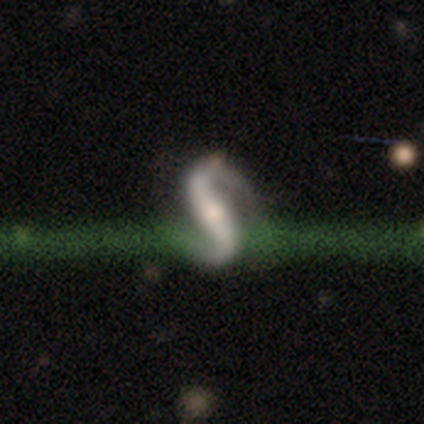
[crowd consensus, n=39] Volunteers were most divided on "bulge size": small: 46%, moderate: 38%, none: 11%, large: 5%, dominant: 0%. More confident: edge-on disk — no (100%); spiral arm count — 2 (100%); smooth or featured — featured or disk (95%); spiral arms — yes (95%); merging — none (85%); bar — strong (65%); spiral winding — loose (51%).